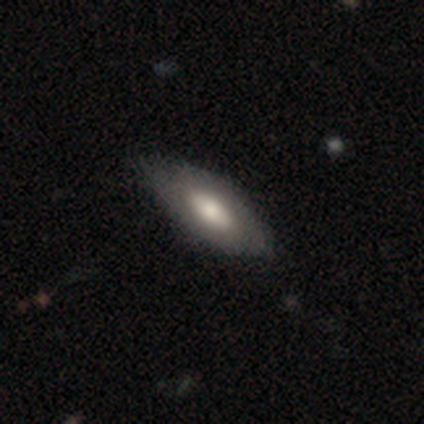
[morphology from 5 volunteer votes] smooth 100%, featured or disk 0%, star or artifact 0%. Down the decision tree: how rounded — in between (80%); merging — none (100%).